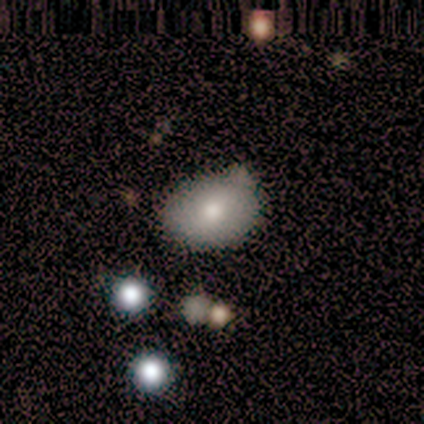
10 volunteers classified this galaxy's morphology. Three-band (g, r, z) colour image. It shows a smooth galaxy with no disk features (80%) that is in between round and cigar-shaped (75%). Merging: none (44%, tied with minor disturbance).